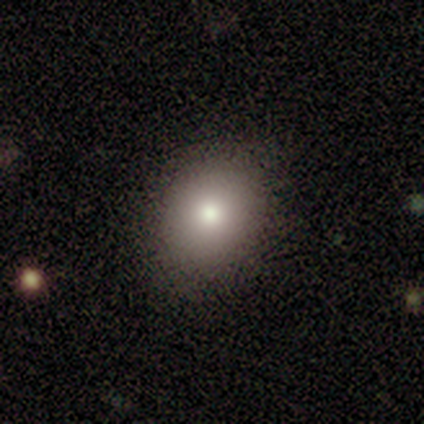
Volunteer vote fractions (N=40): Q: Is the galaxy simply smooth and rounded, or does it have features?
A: smooth — 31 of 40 (78%).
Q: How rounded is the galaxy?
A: in between — 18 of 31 (58%).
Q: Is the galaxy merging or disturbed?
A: none — 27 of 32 (84%).